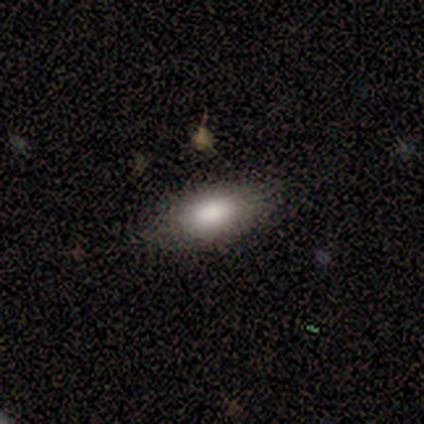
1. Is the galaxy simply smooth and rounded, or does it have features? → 100% smooth, 0% featured or disk, 0% star or artifact.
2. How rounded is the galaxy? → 80% in between, 20% cigar-shaped, 0% round.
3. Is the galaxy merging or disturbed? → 100% none, 0% minor disturbance, 0% major disturbance, 0% merger.